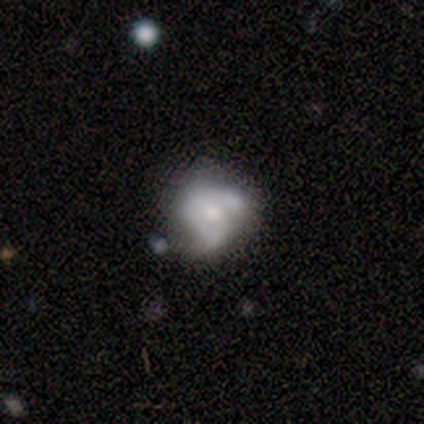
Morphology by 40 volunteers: A featured or disk galaxy (65%) with no bar (76%), 2 (44%) tight (44%) spiral arms (64%) and a moderate central bulge (68%).

Vote fractions:
- Smooth or featured? featured or disk: 65% / smooth: 25% / star or artifact: 10%
- Edge-on disk? no: 96% / yes: 4%
- Bar? no: 76% / weak: 24% / strong: 0%
- Spiral arms? yes: 64% / no: 36%
- Spiral winding? tight: 44% / loose: 31% / medium: 25%
- Spiral arm count? 2: 44% / 1: 31% / can't tell: 25% / 3: 0% / 4: 0% / more than 4: 0%
- Bulge size? moderate: 68% / small: 20% / large: 8% / none: 4% / dominant: 0%
- Merging? minor disturbance: 36% / none: 31% / merger: 25% / major disturbance: 8%